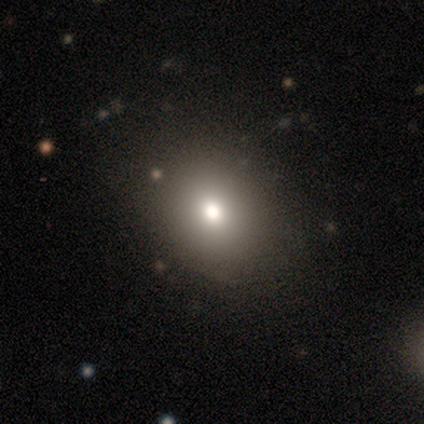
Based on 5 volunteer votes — smooth 100%, featured or disk 0%, star or artifact 0%. Down the decision tree: how rounded — round (60%); merging — none (100%).